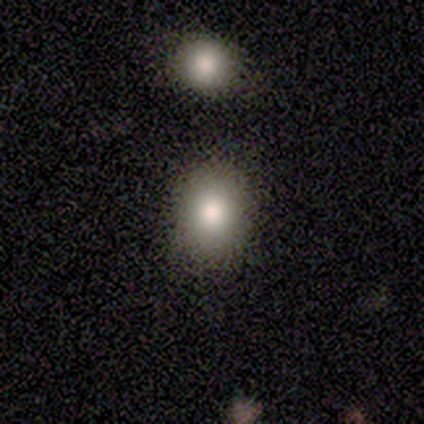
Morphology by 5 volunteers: Smooth or featured? smooth (60%)
How rounded? round (67%)
Merging? none (75%)